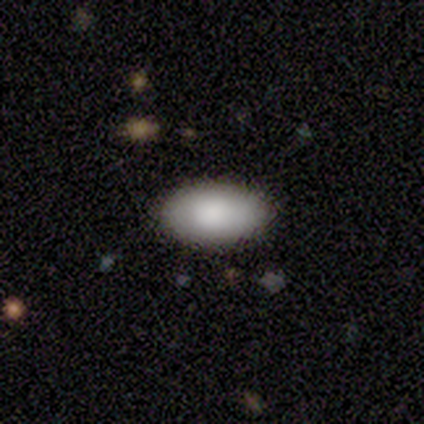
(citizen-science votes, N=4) This appears to be a smooth galaxy with no disk features (100%) that is in between round and cigar-shaped (100%). Merging: none (100%).